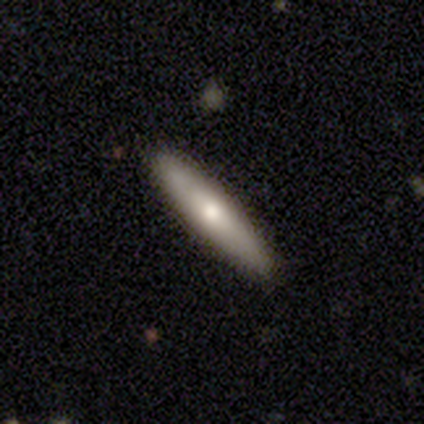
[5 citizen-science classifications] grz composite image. It shows a smooth galaxy with no disk features (60%) that is cigar-shaped (67%). Merging: none (100%).